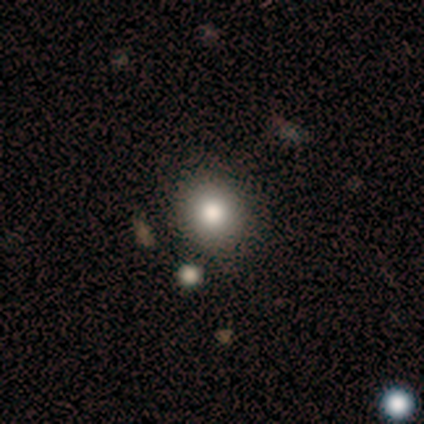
smooth_or_featured: smooth (p=1.00)
how_rounded: round (p=1.00)
merging: none (p=1.00)